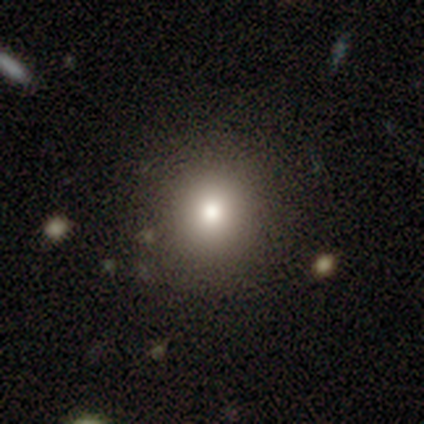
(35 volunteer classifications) This appears to be a smooth galaxy with no disk features (83%) that is round (90%). Merging: none (82%).